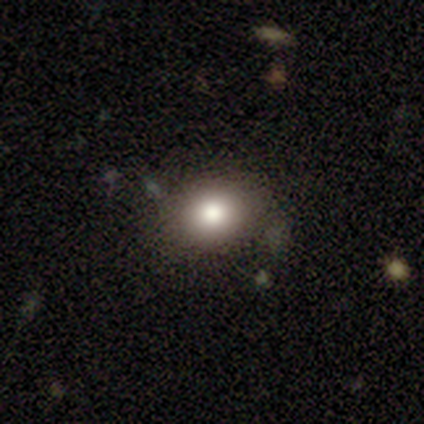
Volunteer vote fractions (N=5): Q: Smooth or featured?
A: smooth (40%); tied with: featured or disk (40%)
Q: How rounded?
A: round (50%); tied with: in between (50%)
Q: Merging?
A: none (100%)